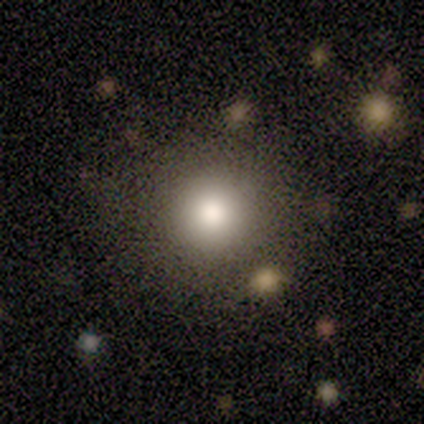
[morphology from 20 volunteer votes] A smooth galaxy with no disk features (85%) that is round (100%).

Vote fractions:
- Smooth or featured? smooth: 85% / star or artifact: 15% / featured or disk: 0%
- How rounded? round: 100% / in between: 0% / cigar-shaped: 0%
- Merging? none: 88% / minor disturbance: 6% / merger: 6% / major disturbance: 0%